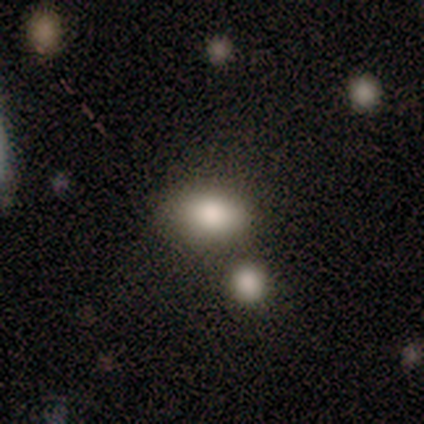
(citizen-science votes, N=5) smooth 60%, star or artifact 40%, featured or disk 0%. Down the decision tree: how rounded — round (67%); merging — none (100%).